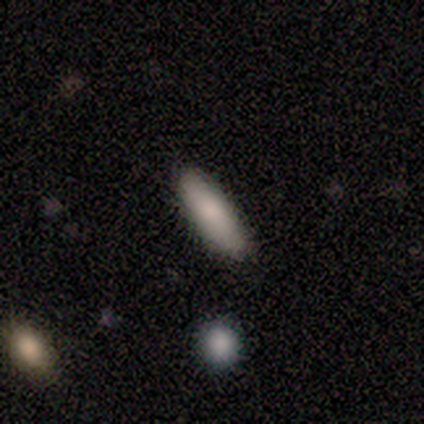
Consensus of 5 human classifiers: Overall: smooth (100%). How rounded: cigar-shaped (60%; in between 40%). Merging: none (100%).